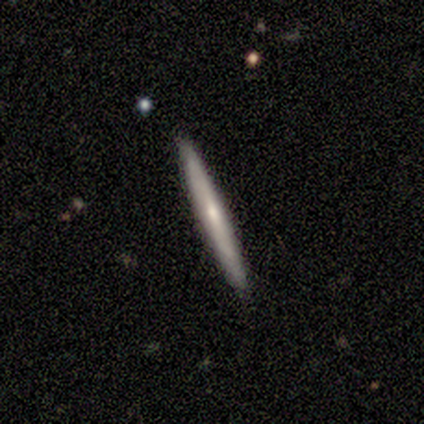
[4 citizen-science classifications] This is likely a featured or disk galaxy (75%). It is clearly viewed edge-on (100%). Edge-on bulge: likely none (67%). Merging: clearly none (100%).